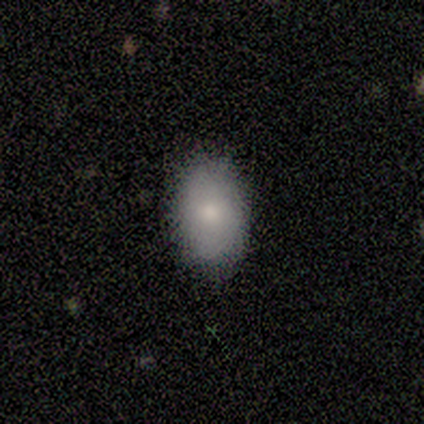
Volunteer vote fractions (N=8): smooth_or_featured: smooth (p=0.88) [alt: star or artifact p=0.12]
how_rounded: in between (p=1.00)
merging: none (p=0.71) [alt: minor disturbance p=0.29]